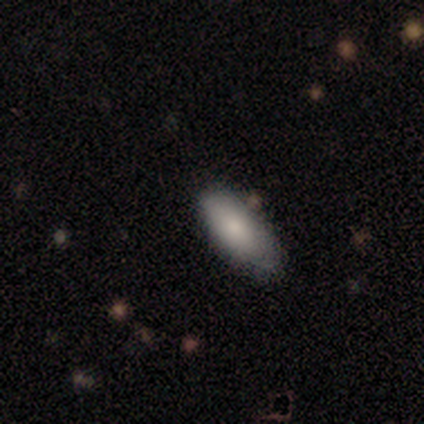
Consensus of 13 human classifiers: smooth-or-featured: smooth: 100% | featured or disk: 0% | star or artifact: 0%
  how-rounded: in between: 92% | cigar-shaped: 8% | round: 0%
  merging: none: 69% | minor disturbance: 31% | major disturbance: 0% | merger: 0%